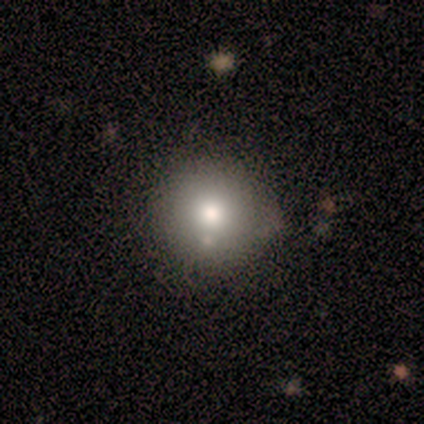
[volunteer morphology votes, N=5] Overall: smooth (60%; featured or disk 20%). How rounded: round (100%). Merging: none (75%).